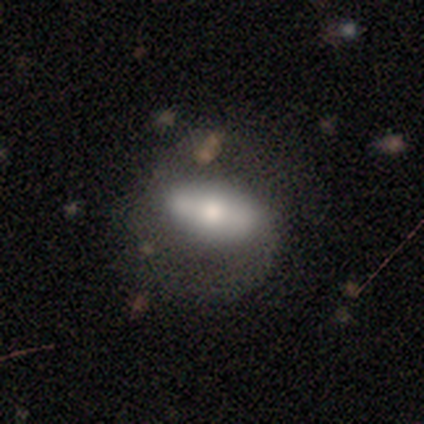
Volunteers were most divided on "smooth or featured" (2-way tie): smooth: 46%, featured or disk: 46%, star or artifact: 8%. Remaining: how rounded — in between (88%); merging — none (44%).